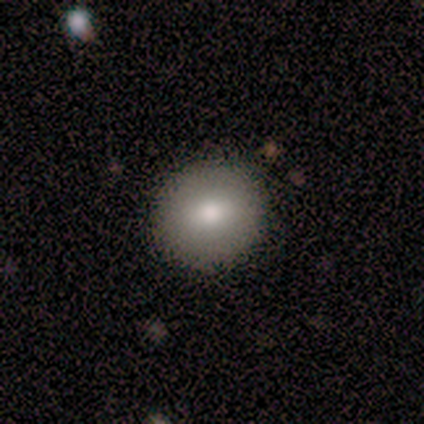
This is clearly a smooth galaxy (100%). How rounded: clearly round (80%). Merging: clearly none (100%).